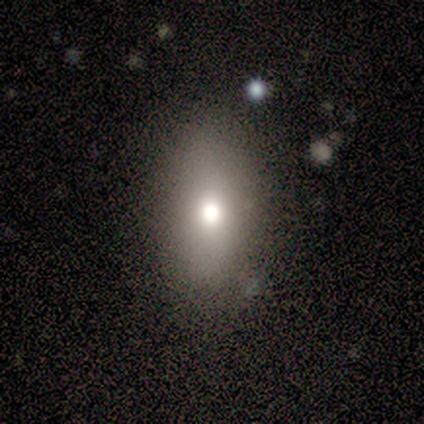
Q: Smooth or featured?
A: smooth (100%)
Q: How rounded?
A: in between (100%)
Q: Merging?
A: none (100%)